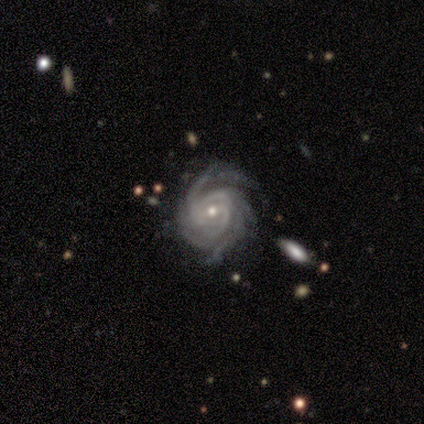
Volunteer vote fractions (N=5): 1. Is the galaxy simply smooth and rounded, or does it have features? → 100% featured or disk, 0% smooth, 0% star or artifact.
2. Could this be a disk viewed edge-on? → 100% no, 0% yes.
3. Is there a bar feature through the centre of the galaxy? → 40% weak (tied), 40% no (tied), 20% strong.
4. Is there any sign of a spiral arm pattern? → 100% yes, 0% no.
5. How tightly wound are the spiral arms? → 60% tight, 20% medium, 20% loose.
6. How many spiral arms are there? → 40% 3 (tied), 40% can't tell (tied), 20% 4, 0% 1, 0% 2, 0% more than 4.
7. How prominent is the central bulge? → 80% small, 20% moderate, 0% dominant, 0% large, 0% none.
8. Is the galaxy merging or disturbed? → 60% none, 20% minor disturbance, 20% major disturbance, 0% merger.